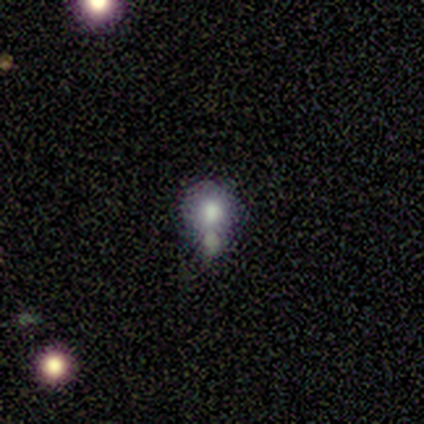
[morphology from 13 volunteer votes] Smooth or featured?
  - smooth: 46% *
  - featured or disk: 31%
  - star or artifact: 23%
How rounded?
  - round: 83% *
  - in between: 17%
  - cigar-shaped: 0%
Merging?
  - none: 40% * (tied)
  - merger: 40% * (tied)
  - minor disturbance: 10%
  - major disturbance: 10%